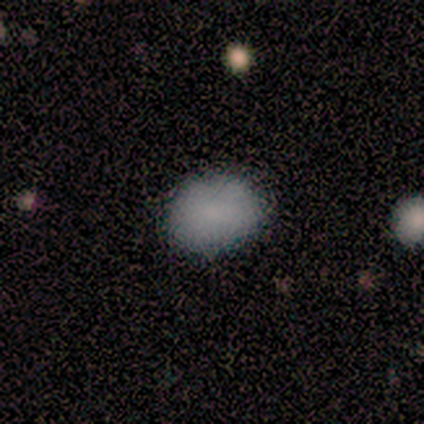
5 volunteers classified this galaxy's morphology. Smooth or featured?
  - smooth: 100% *
  - featured or disk: 0%
  - star or artifact: 0%
How rounded?
  - in between: 100% *
  - round: 0%
  - cigar-shaped: 0%
Merging?
  - none: 100% *
  - minor disturbance: 0%
  - major disturbance: 0%
  - merger: 0%